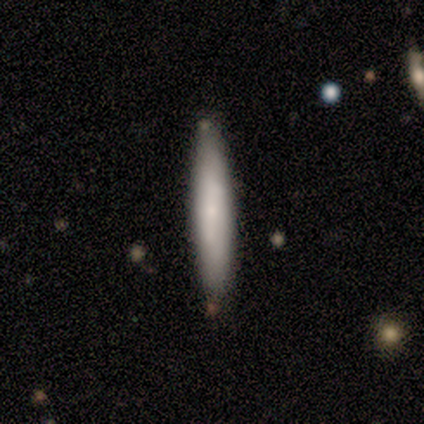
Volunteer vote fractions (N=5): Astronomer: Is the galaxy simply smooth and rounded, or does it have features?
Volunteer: featured or disk — 60% (runner-up: smooth, 40%).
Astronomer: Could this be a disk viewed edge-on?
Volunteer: yes — 67%.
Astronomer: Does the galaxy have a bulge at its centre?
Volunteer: none — 50%, tied with rounded at 50%.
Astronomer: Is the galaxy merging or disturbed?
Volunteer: none — 100%.